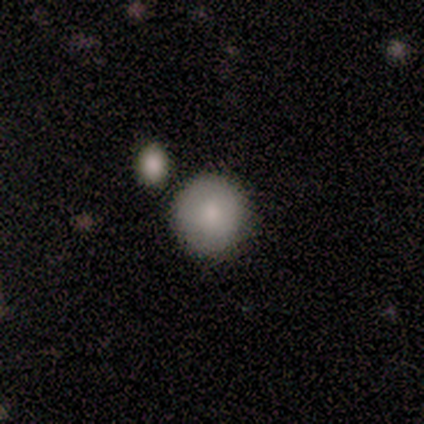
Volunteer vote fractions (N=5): smooth 60%, featured or disk 20%, star or artifact 20%. Down the decision tree: how rounded — round (67%); merging — none (75%).